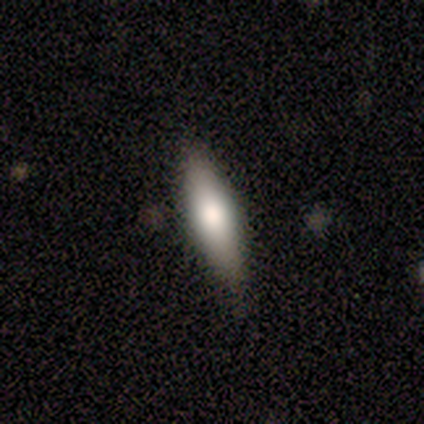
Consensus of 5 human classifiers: smooth-or-featured: smooth: 100% | featured or disk: 0% | star or artifact: 0%
  how-rounded: cigar-shaped: 60% | in between: 40% | round: 0%
  merging: none: 60% | minor disturbance: 40% | major disturbance: 0% | merger: 0%